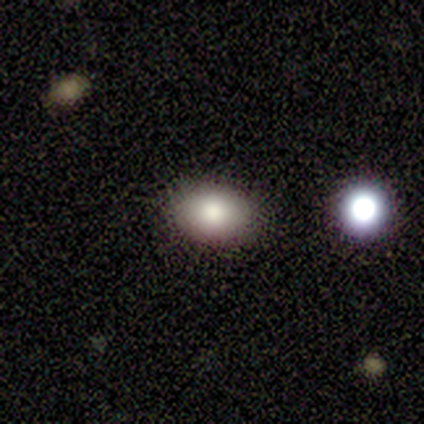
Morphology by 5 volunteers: Smooth or featured: smooth — 60% (featured or disk — 40%)
How rounded: in between — 100%
Merging: none — 100%